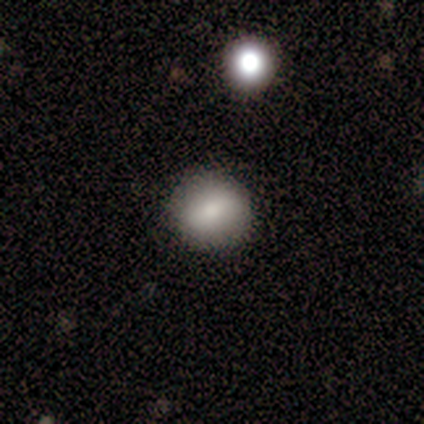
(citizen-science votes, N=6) smooth 50% (tied), featured or disk 50% (tied), star or artifact 0%. Down the decision tree: how rounded — round (67%); merging — none (100%).